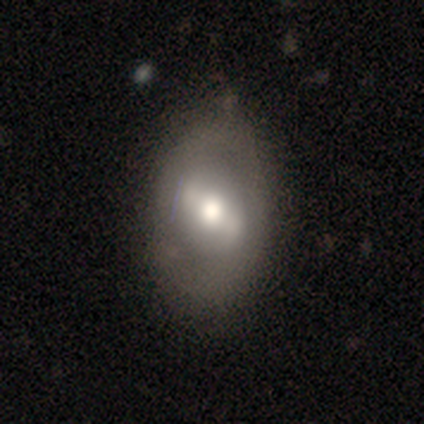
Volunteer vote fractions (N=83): Overall: featured or disk (54%; smooth 41%). Edge-on disk: no (98%). Bar: strong (41%; weak 36%). Spiral arms: no (70%). Bulge size: moderate (66%). Merging: none (67%; minor disturbance 28%).